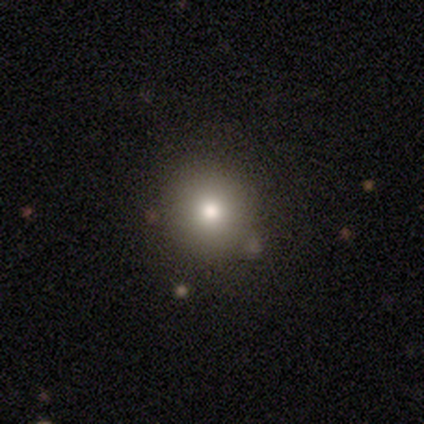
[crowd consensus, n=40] Overall: smooth (80%). How rounded: round (100%). Merging: none (88%).